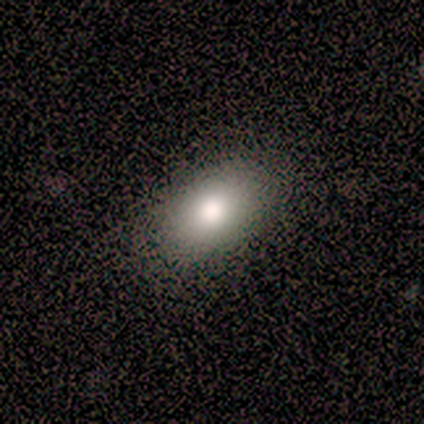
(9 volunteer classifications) Smooth or featured: smooth — 100%
How rounded: in between — 100%
Merging: none — 100%